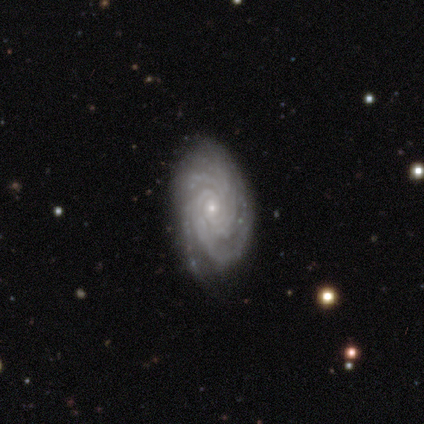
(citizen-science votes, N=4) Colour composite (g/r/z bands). It shows a featured or disk galaxy (100%) with no bar (100%), tight (75%) spiral arms (100%) and a small central bulge (100%). Merging: none (100%).